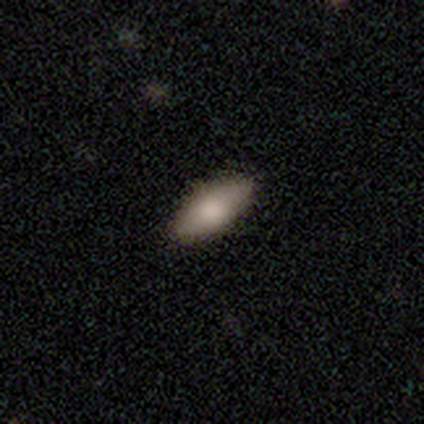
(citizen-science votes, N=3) Smooth or featured?
  - smooth: 33% * (tied)
  - featured or disk: 33% * (tied)
  - star or artifact: 33% * (tied)
How rounded?
  - in between: 100% *
  - round: 0%
  - cigar-shaped: 0%
Merging?
  - none: 100% *
  - minor disturbance: 0%
  - major disturbance: 0%
  - merger: 0%